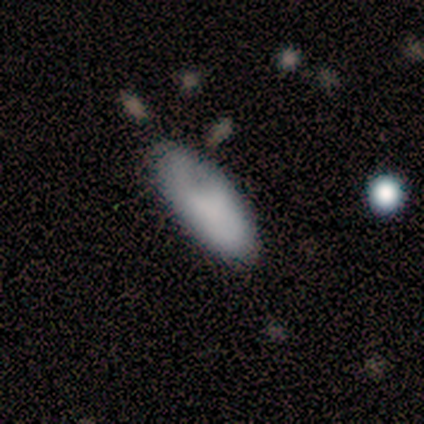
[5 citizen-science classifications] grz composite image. It shows a smooth galaxy with no disk features (60%) that is in between round and cigar-shaped (100%). Merging: none (100%).